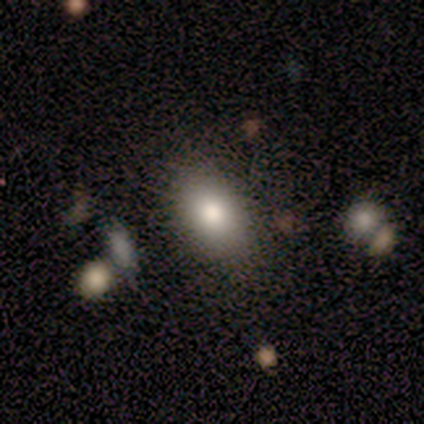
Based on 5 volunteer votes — This is clearly a smooth galaxy (100%). How rounded: clearly in between (100%). Merging: likely none (60%).